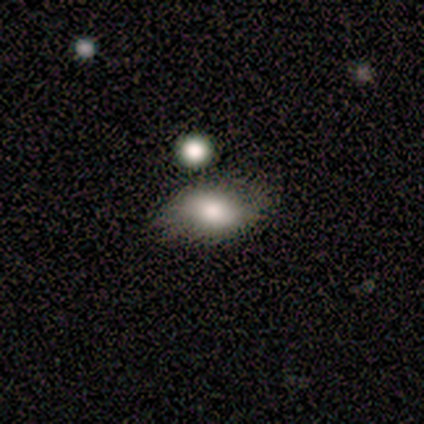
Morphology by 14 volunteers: Q: Smooth or featured?
A: smooth (79%); runner-up: star or artifact (14%)
Q: How rounded?
A: in between (82%); runner-up: round (9%)
Q: Merging?
A: none (58%); runner-up: minor disturbance (33%)